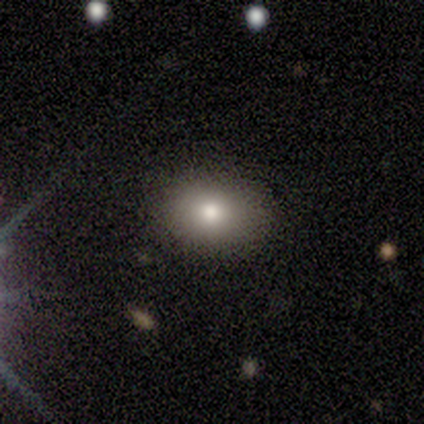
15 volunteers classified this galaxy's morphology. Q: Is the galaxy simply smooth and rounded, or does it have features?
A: smooth — 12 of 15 (80%).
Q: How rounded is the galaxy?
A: in between — 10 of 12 (83%).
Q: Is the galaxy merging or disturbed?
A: none — 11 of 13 (85%).